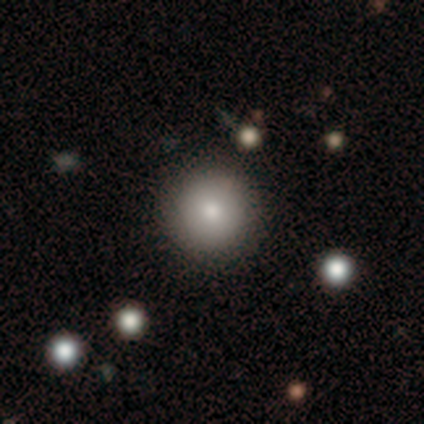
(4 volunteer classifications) Q: Smooth or featured?
A: smooth (100%)
Q: How rounded?
A: round (100%)
Q: Merging?
A: none (100%)